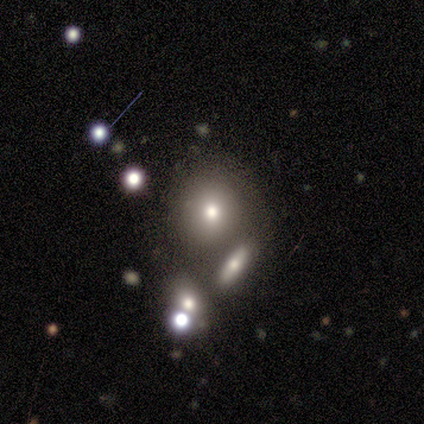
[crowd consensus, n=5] This is clearly a smooth galaxy (100%). How rounded: clearly round (100%). Merging: clearly none (80%).